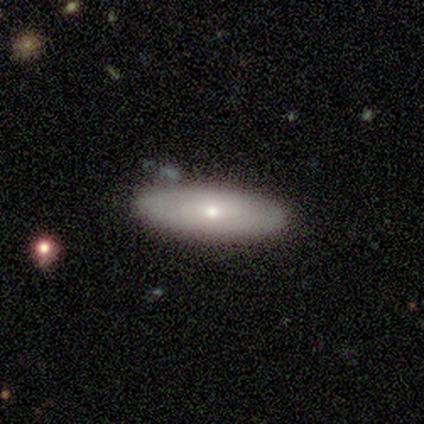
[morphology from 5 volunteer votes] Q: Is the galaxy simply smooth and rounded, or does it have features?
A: smooth — 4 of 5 (80%).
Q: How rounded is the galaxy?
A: in between — 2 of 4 (50%).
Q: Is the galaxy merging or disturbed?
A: none — 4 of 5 (80%).